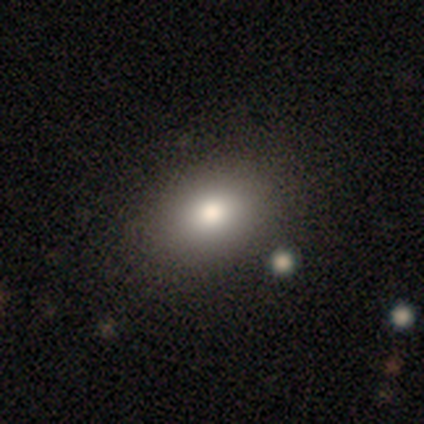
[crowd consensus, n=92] Q: Smooth or featured?
A: smooth (82%); runner-up: featured or disk (10%)
Q: How rounded?
A: in between (71%); runner-up: round (28%)
Q: Merging?
A: none (85%); runner-up: minor disturbance (11%)